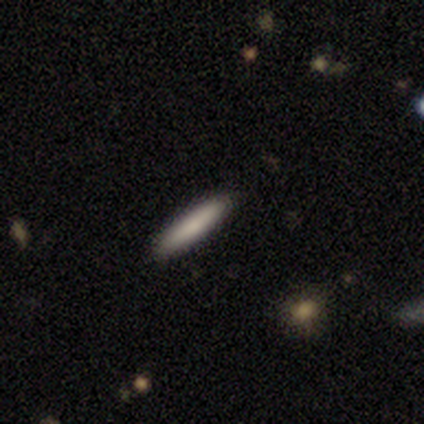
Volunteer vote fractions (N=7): Morphology: type=smooth (86%); roundness=cigar-shaped (100%); merging=none (71%).